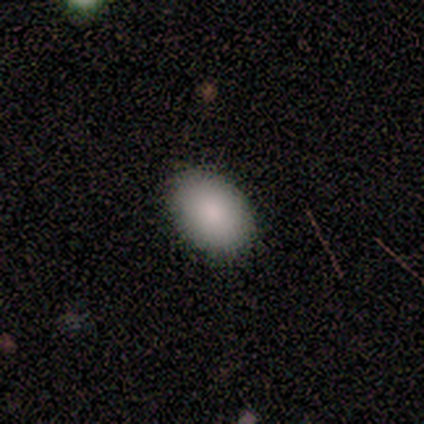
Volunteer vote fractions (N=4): Overall: smooth (100%). How rounded: in between (100%). Merging: none (50%, tied with minor disturbance).